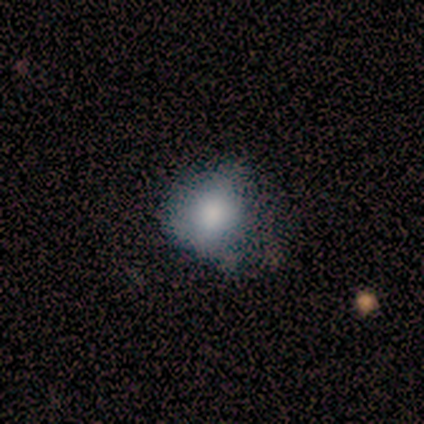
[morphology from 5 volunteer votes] Smooth or featured?
  - smooth: 80% *
  - featured or disk: 20%
  - star or artifact: 0%
How rounded?
  - round: 75% *
  - in between: 25%
  - cigar-shaped: 0%
Merging?
  - none: 40% * (tied)
  - minor disturbance: 40% * (tied)
  - major disturbance: 20%
  - merger: 0%